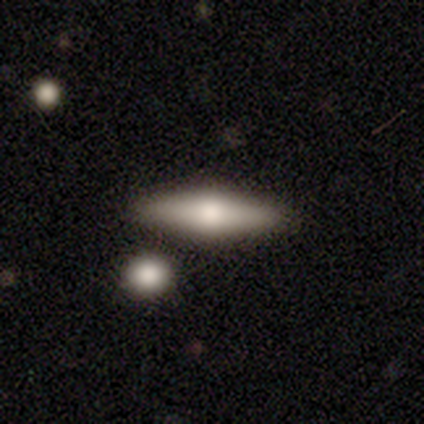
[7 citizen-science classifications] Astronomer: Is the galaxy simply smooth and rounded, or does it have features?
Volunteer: featured or disk — 57%.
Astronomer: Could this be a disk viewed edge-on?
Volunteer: yes — 75%.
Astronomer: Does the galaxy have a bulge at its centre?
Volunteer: rounded — 100%.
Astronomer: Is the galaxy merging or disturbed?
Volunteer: none — 67%.